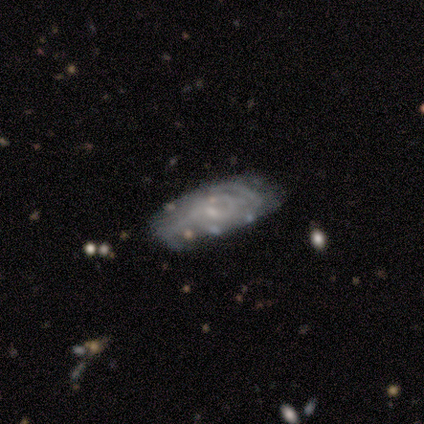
Overall: featured or disk (80%). Edge-on disk: no (75%). Bar: weak (100%). Spiral arms: yes (100%). Spiral arm count: 2 (67%; can't tell 33%). Spiral winding: tight (67%; medium 33%). Bulge size: small (67%; none 33%). Merging: none (60%; minor disturbance 20%).